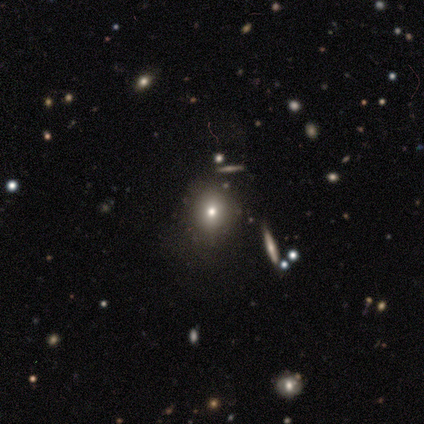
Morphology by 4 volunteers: Q: Smooth or featured?
A: smooth (50%); tied with: star or artifact (50%)
Q: How rounded?
A: round (100%)
Q: Merging?
A: none (100%)